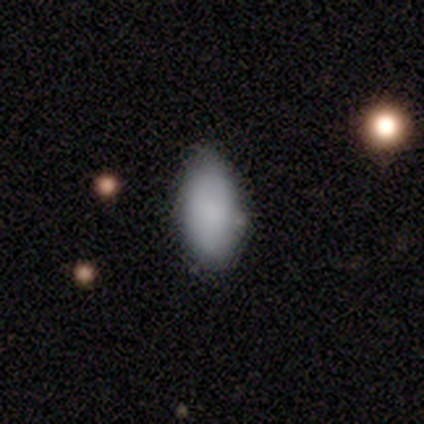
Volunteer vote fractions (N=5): Smooth or featured?
  - smooth: 60% *
  - featured or disk: 20%
  - star or artifact: 20%
How rounded?
  - in between: 100% *
  - round: 0%
  - cigar-shaped: 0%
Merging?
  - none: 75% *
  - minor disturbance: 25%
  - major disturbance: 0%
  - merger: 0%